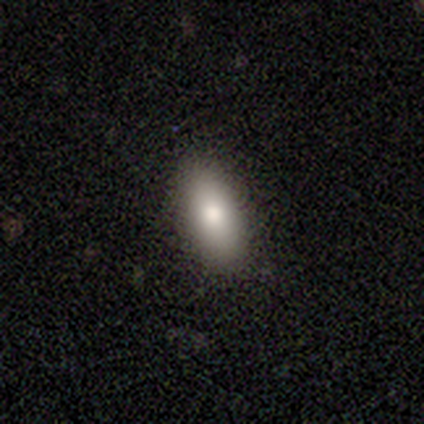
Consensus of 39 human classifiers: This is clearly a smooth galaxy (82%). How rounded: clearly in between (81%). Merging: clearly none (95%).